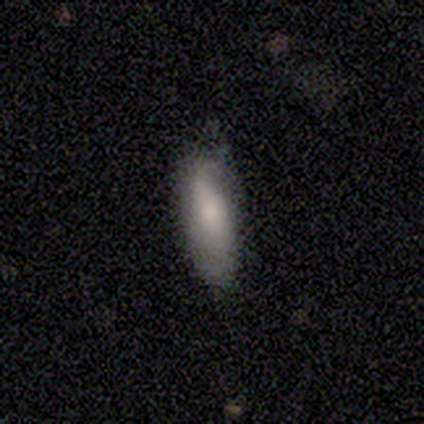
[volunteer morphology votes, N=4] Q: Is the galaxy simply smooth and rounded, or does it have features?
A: smooth — 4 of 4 (100%).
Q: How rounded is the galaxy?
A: cigar-shaped — 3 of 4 (75%).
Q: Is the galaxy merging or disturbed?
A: none — 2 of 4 (50%, tied with minor disturbance).